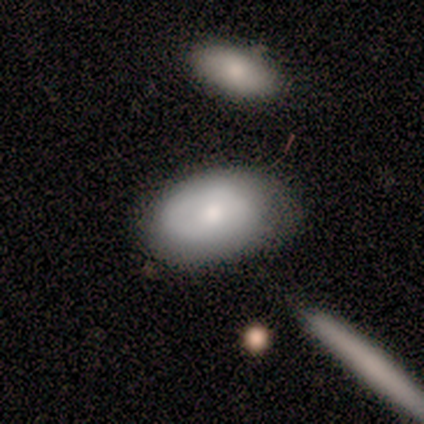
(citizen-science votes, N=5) smooth-or-featured: smooth: 60% | featured or disk: 40% | star or artifact: 0%
  how-rounded: in between: 67% | round: 33% | cigar-shaped: 0%
  merging: minor disturbance: 60% | none: 20% | major disturbance: 20% | merger: 0%